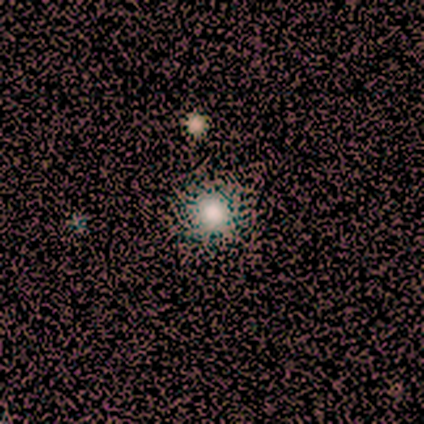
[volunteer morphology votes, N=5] smooth-or-featured: smooth: 60% | star or artifact: 40% | featured or disk: 0%
  how-rounded: round: 67% | in between: 33% | cigar-shaped: 0%
  merging: none: 100% | minor disturbance: 0% | major disturbance: 0% | merger: 0%